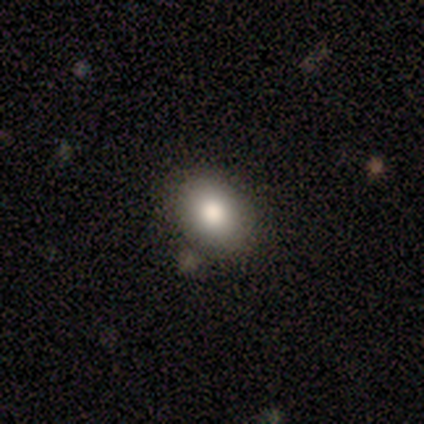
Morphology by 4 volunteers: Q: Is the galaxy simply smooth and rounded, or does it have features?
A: smooth — 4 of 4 (100%).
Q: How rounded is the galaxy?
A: round — 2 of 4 (50%, tied with in between).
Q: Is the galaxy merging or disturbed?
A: none — 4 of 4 (100%).